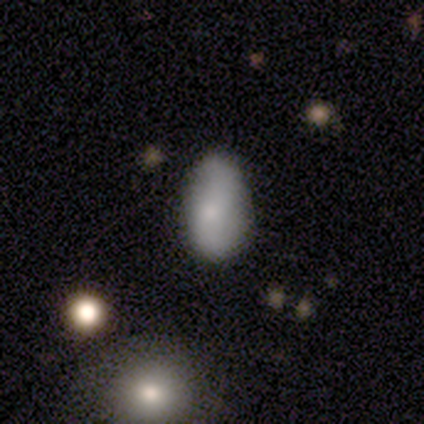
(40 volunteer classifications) smooth 70%, featured or disk 30%, star or artifact 0%. Down the decision tree: how rounded — in between (93%); merging — none (55%).